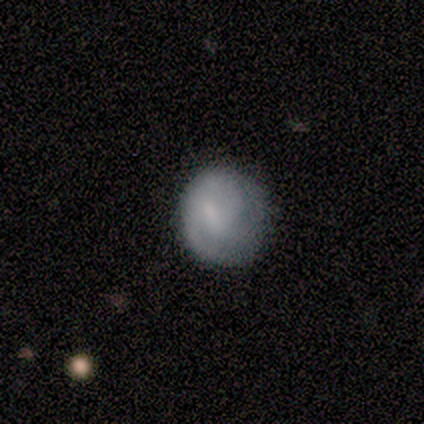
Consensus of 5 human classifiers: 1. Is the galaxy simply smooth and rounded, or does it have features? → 80% smooth, 20% featured or disk, 0% star or artifact.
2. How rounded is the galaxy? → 100% round, 0% in between, 0% cigar-shaped.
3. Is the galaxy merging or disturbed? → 80% none, 20% minor disturbance, 0% major disturbance, 0% merger.